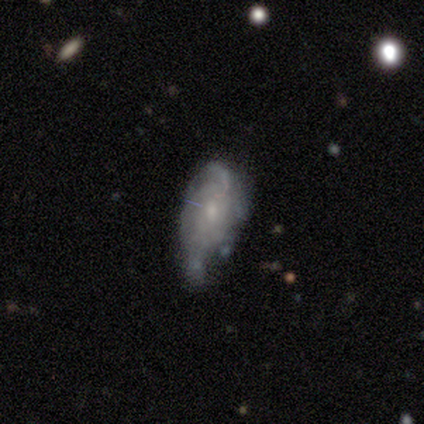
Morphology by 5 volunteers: This appears to be a featured or disk galaxy (100%) with a weak bar (60%), 1 (40%, tied with can't tell) tight (60%) spiral arms (100%) and a small central bulge (60%). Merging: minor disturbance (60%).